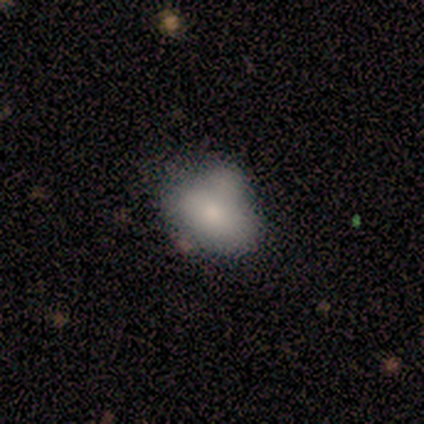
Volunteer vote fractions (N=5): This is likely a smooth galaxy (60%). How rounded: likely in between (67%). Merging: possibly minor disturbance (50%).